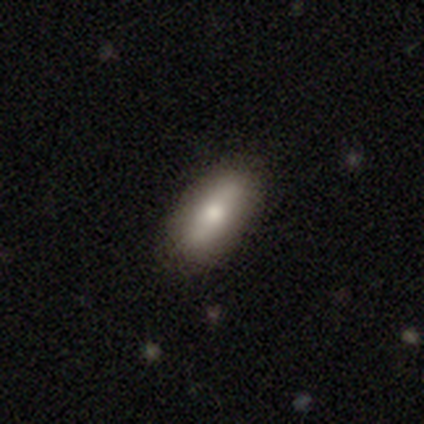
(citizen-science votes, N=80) Morphology: type=smooth (79%); roundness=in between (86%); merging=none (52%).